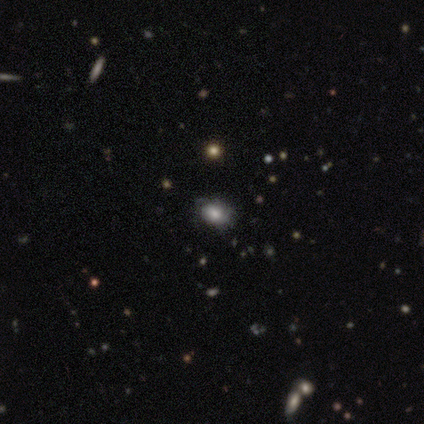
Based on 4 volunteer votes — Overall: smooth (75%). How rounded: in between (67%; round 33%). Merging: none (100%).